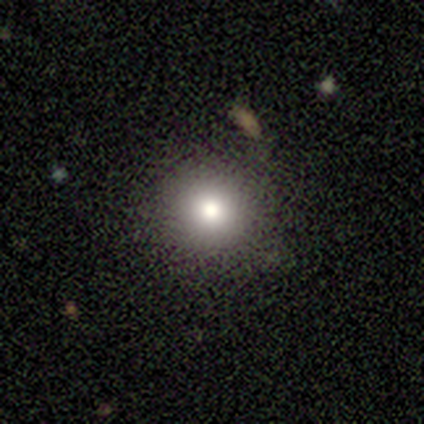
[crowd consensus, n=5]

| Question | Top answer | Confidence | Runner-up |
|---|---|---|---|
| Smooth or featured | star or artifact | 80% | smooth (20%) |